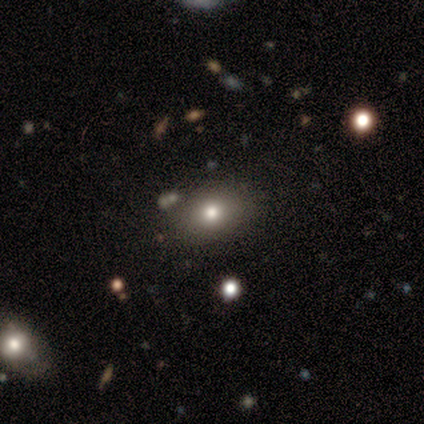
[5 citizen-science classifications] Smooth or featured: smooth — 100%
How rounded: in between — 100%
Merging: none — 100%